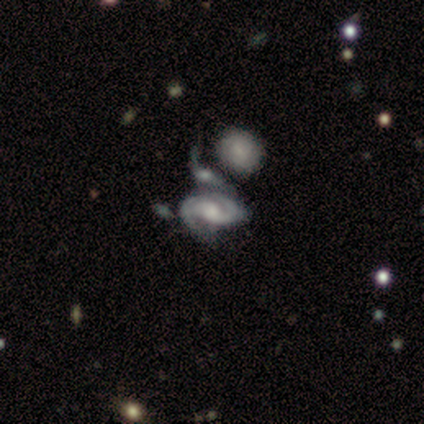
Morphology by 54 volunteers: Smooth or featured?
  - featured or disk: 87% *
  - star or artifact: 9%
  - smooth: 4%
Edge-on disk?
  - no: 98% *
  - yes: 2%
Bar?
  - no: 63% *
  - weak: 30%
  - strong: 7%
Spiral arms?
  - yes: 100% *
  - no: 0%
Spiral winding?
  - tight: 50% *
  - medium: 43%
  - loose: 7%
Spiral arm count?
  - 2: 80% *
  - 1: 11%
  - can't tell: 7%
  - 3: 2%
  - 4: 0%
  - more than 4: 0%
Bulge size?
  - large: 33% * (tied)
  - moderate: 33% * (tied)
  - small: 22%
  - none: 11%
  - dominant: 2%
Merging?
  - merger: 73% *
  - none: 14%
  - minor disturbance: 8%
  - major disturbance: 4%